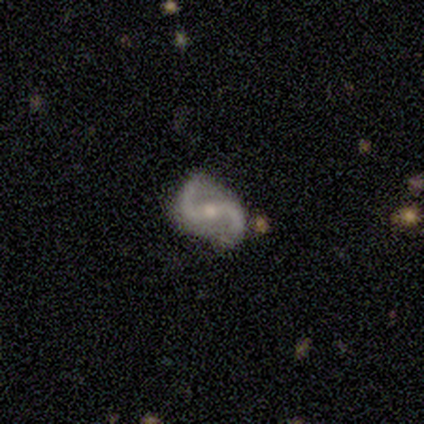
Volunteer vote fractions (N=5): Smooth or featured? featured or disk (80%)
Edge-on disk? no (100%)
Bar? weak (50%, tied with no)
Spiral arms? yes (100%)
Spiral winding? medium (100%)
Spiral arm count? 2 (100%)
Bulge size? small (100%)
Merging? none (80%)